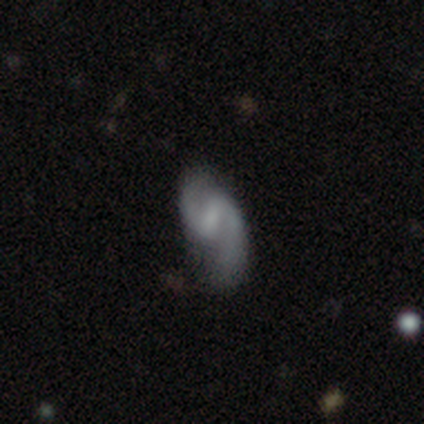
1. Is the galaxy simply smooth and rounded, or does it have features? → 70% featured or disk, 18% smooth, 12% star or artifact.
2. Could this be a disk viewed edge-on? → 100% no, 0% yes.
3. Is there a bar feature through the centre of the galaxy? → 61% weak, 29% strong, 11% no.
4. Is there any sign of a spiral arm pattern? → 100% yes, 0% no.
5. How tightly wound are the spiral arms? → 61% loose, 36% medium, 4% tight.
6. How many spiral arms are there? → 93% 2, 4% 1, 4% can't tell, 0% 3, 0% 4, 0% more than 4.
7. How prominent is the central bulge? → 39% small, 32% none, 25% moderate, 4% large, 0% dominant.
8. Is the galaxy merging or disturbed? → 54% none, 31% minor disturbance, 14% major disturbance, 0% merger.